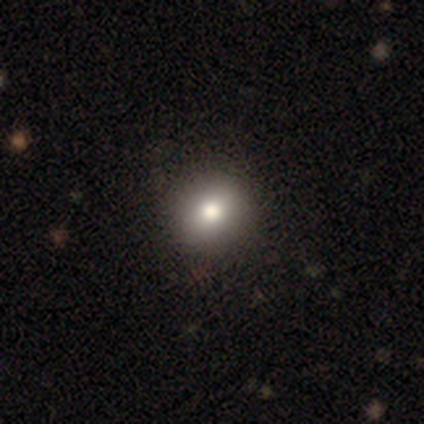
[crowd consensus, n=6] smooth_or_featured: smooth (p=0.67) [alt: featured or disk p=0.17]
how_rounded: round (p=1.00)
merging: none (p=1.00)